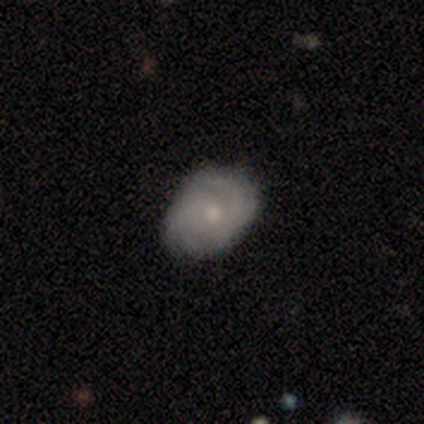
A featured or disk galaxy (55%) with no bar (100%), 3 (50%) medium (75%) spiral arms (67%) and a small central bulge (67%).

Vote fractions:
- Smooth or featured? featured or disk: 55% / smooth: 45% / star or artifact: 0%
- Edge-on disk? no: 100% / yes: 0%
- Bar? no: 100% / strong: 0% / weak: 0%
- Spiral arms? yes: 67% / no: 33%
- Spiral winding? medium: 75% / tight: 25% / loose: 0%
- Spiral arm count? 3: 50% / 4: 25% / can't tell: 25% / 1: 0% / 2: 0% / more than 4: 0%
- Bulge size? small: 67% / moderate: 33% / dominant: 0% / large: 0% / none: 0%
- Merging? none: 73% / minor disturbance: 27% / major disturbance: 0% / merger: 0%